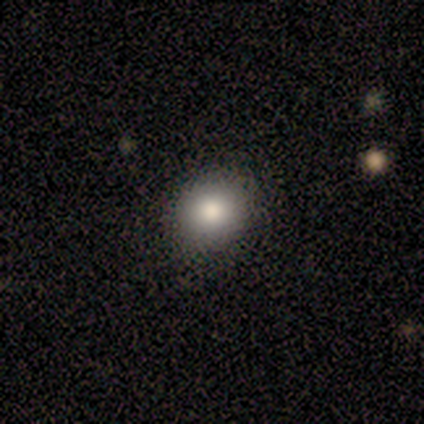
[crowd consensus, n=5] A smooth galaxy with no disk features (100%) that is round (80%). Merging: none (100%).